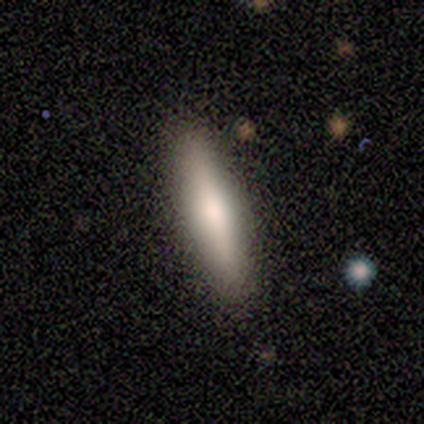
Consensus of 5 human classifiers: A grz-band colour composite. It shows a smooth galaxy with no disk features (100%) that is cigar-shaped (100%). Merging: none (100%).